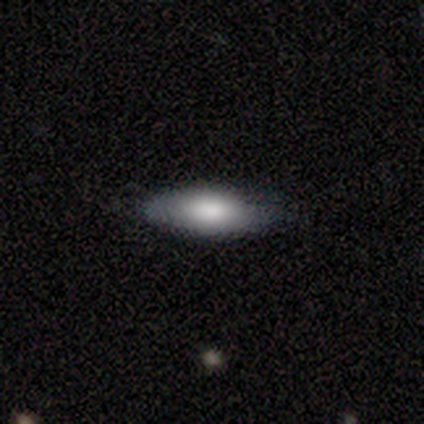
smooth_or_featured: featured or disk (p=0.60) [alt: smooth p=0.40]
disk_edge_on: no (p=0.67) [alt: yes p=0.33]
bar: no (p=1.00)
has_spiral_arms: no (p=1.00)
bulge_size: dominant (p=0.50) [tied with: large p=0.50]
merging: none (p=0.80) [alt: minor disturbance p=0.20]